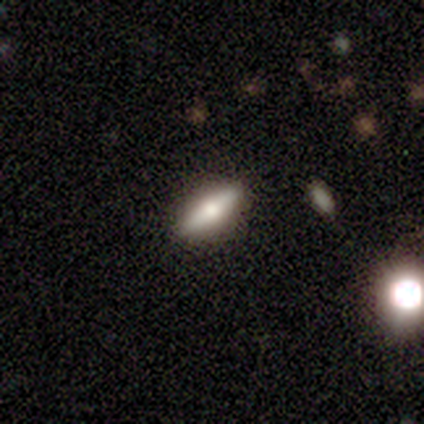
Smooth or featured: featured or disk — 80% (smooth — 20%)
Edge-on disk: yes — 75% (no — 25%)
Edge-on bulge: rounded — 100%
Merging: none — 100%